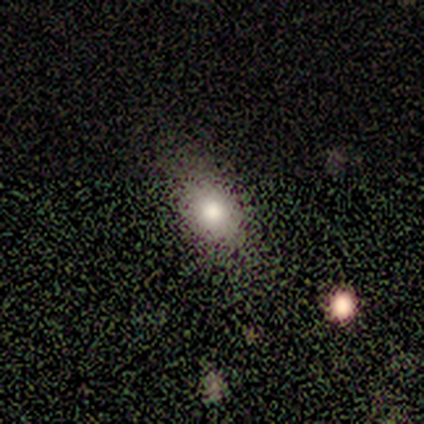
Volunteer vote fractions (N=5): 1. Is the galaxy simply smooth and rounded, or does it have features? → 80% smooth, 20% featured or disk, 0% star or artifact.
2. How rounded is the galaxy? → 50% round (tied), 50% in between (tied), 0% cigar-shaped.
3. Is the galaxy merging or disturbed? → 80% none, 20% minor disturbance, 0% major disturbance, 0% merger.